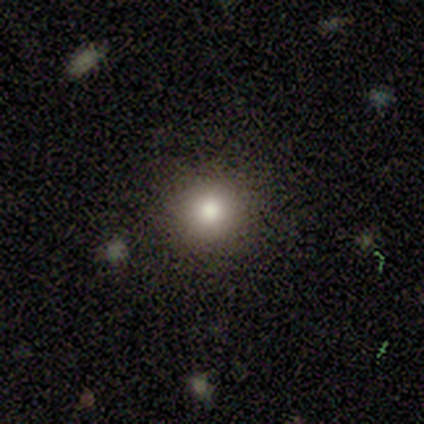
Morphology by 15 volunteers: smooth-or-featured: smooth: 87% | featured or disk: 7% | star or artifact: 7%
  how-rounded: round: 100% | in between: 0% | cigar-shaped: 0%
  merging: none: 93% | minor disturbance: 7% | major disturbance: 0% | merger: 0%